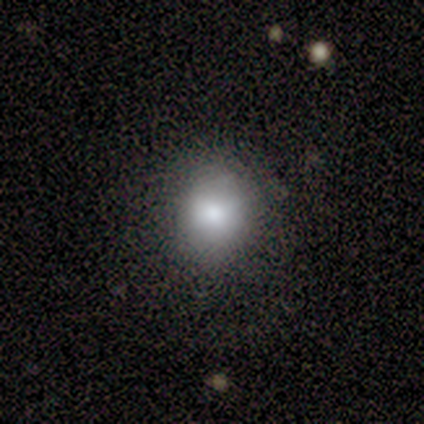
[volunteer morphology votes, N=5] smooth 100%, featured or disk 0%, star or artifact 0%. Down the decision tree: how rounded — round (100%); merging — none (100%).